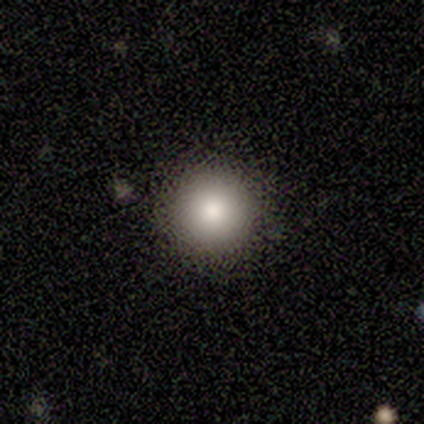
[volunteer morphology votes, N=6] Volunteers were most divided on "how rounded": round: 83%, cigar-shaped: 17%, in between: 0%. More confident: smooth or featured — smooth (100%); merging — none (83%).